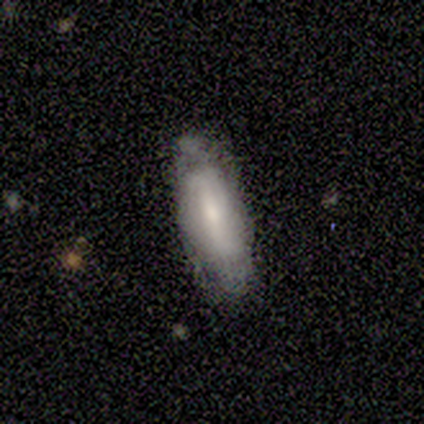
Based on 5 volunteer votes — Q: Smooth or featured?
A: featured or disk (60%); runner-up: smooth (40%)
Q: Edge-on disk?
A: no (100%)
Q: Bar?
A: strong (67%); runner-up: no (33%)
Q: Spiral arms?
A: no (67%); runner-up: yes (33%)
Q: Bulge size?
A: small (67%); runner-up: moderate (33%)
Q: Merging?
A: none (60%); runner-up: minor disturbance (40%)